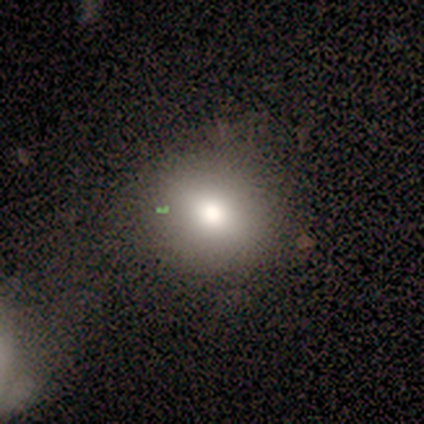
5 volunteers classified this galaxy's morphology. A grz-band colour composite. It shows a smooth galaxy with no disk features (80%) that is round (100%). Merging: none (100%).